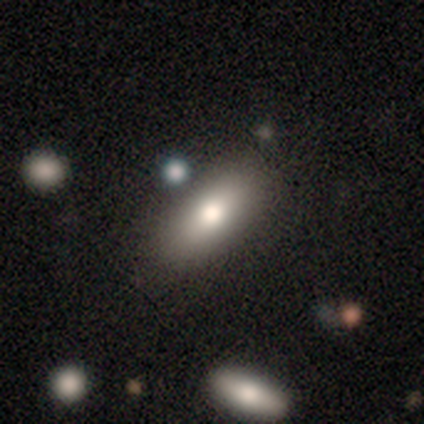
Smooth or featured?
  - smooth: 72% *
  - featured or disk: 17%
  - star or artifact: 11%
How rounded?
  - in between: 75% *
  - cigar-shaped: 20%
  - round: 5%
Merging?
  - none: 85% *
  - minor disturbance: 12%
  - major disturbance: 1%
  - merger: 1%